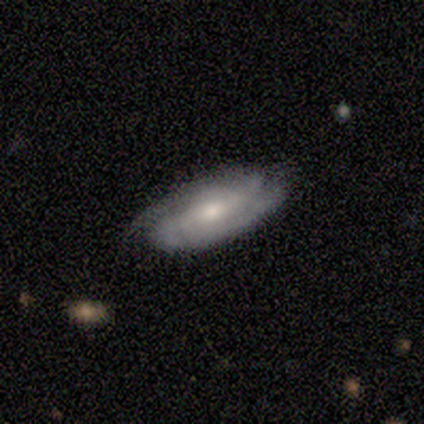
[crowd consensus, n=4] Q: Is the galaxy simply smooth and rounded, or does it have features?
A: featured or disk — 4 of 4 (100%).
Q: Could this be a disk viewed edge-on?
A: no — 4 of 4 (100%).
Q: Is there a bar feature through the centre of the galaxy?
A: strong — 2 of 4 (50%).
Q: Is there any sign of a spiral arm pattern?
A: yes — 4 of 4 (100%).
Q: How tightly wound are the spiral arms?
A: tight — 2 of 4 (50%).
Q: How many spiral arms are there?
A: can't tell — 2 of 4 (50%).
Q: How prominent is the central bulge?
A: moderate — 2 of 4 (50%, tied with small).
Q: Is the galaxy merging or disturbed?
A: none — 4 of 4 (100%).